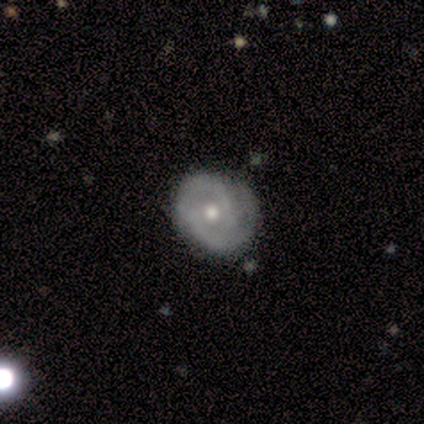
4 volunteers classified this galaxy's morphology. Smooth or featured? 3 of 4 (75%) said featured or disk. Edge-on disk? 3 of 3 (100%) said no. Bar? 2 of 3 (67%) said weak. Spiral arms? 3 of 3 (100%) said yes. Spiral winding? 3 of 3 (100%) said tight. Spiral arm count? 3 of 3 (100%) said 2. Bulge size? 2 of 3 (67%) said moderate. Merging? 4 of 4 (100%) said none.